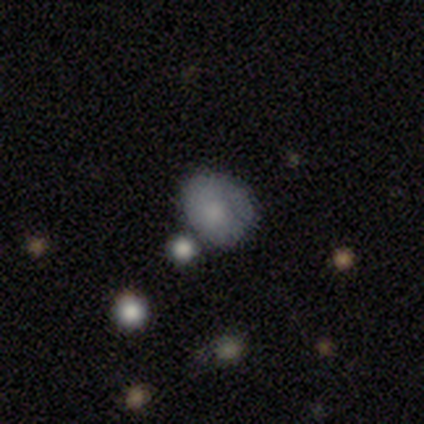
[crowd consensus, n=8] This is likely a smooth galaxy (75%). How rounded: likely round (67%). Merging: marginally none (43%, tied with minor disturbance).